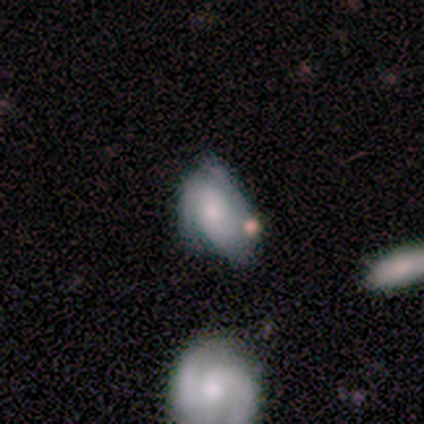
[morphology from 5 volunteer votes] type=smooth (80%); roundness=in between (100%); merging=none (40%).